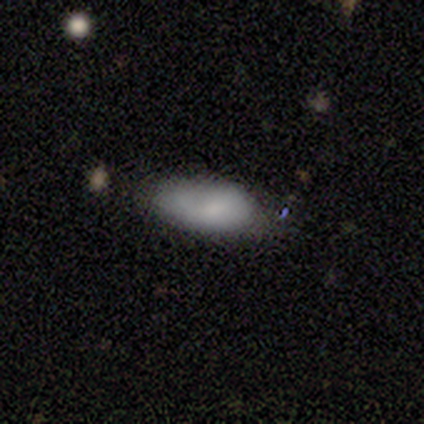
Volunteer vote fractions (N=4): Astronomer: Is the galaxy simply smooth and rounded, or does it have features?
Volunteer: smooth — 100%.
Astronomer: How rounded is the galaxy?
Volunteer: in between — 100%.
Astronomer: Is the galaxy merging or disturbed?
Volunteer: none — 75%.